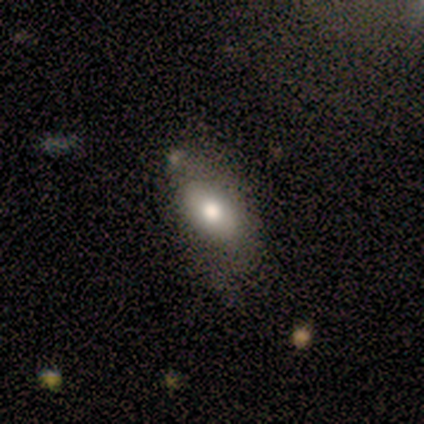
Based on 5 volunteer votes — Smooth or featured: smooth — 100%
How rounded: in between — 80% (cigar-shaped — 20%)
Merging: none — 60% (minor disturbance — 20%)